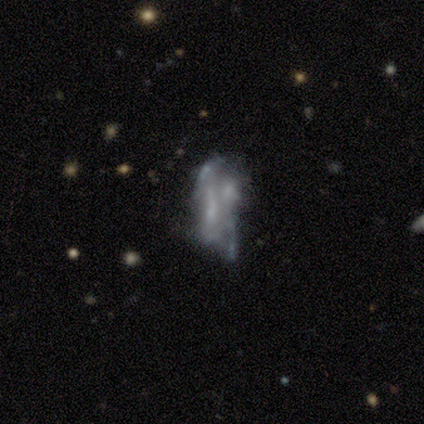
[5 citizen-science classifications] Smooth or featured?
  - featured or disk: 60% *
  - star or artifact: 40%
  - smooth: 0%
Edge-on disk?
  - no: 100% *
  - yes: 0%
Bar?
  - no: 100% *
  - strong: 0%
  - weak: 0%
Spiral arms?
  - no: 100% *
  - yes: 0%
Bulge size?
  - none: 100% *
  - dominant: 0%
  - large: 0%
  - moderate: 0%
  - small: 0%
Merging?
  - none: 33% * (tied)
  - major disturbance: 33% * (tied)
  - merger: 33% * (tied)
  - minor disturbance: 0%